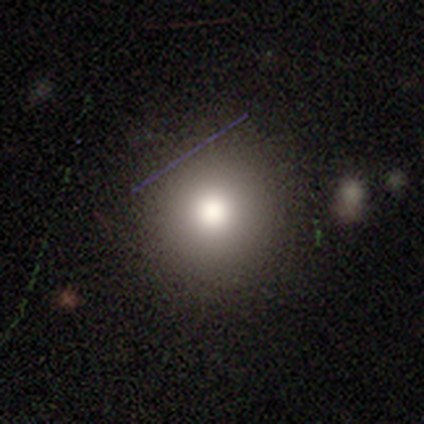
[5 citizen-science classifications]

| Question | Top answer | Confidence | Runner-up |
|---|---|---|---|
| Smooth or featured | smooth | 100% | — |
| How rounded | round | 100% | — |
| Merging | none | 80% | minor disturbance (20%) |